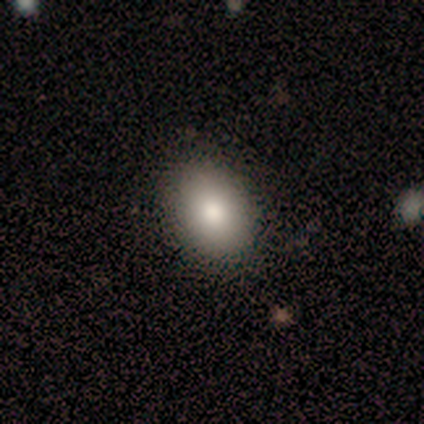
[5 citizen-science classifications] A smooth galaxy with no disk features (100%) that is in between round and cigar-shaped (100%).

Vote fractions:
- Smooth or featured? smooth: 100% / featured or disk: 0% / star or artifact: 0%
- How rounded? in between: 100% / round: 0% / cigar-shaped: 0%
- Merging? none: 100% / minor disturbance: 0% / major disturbance: 0% / merger: 0%